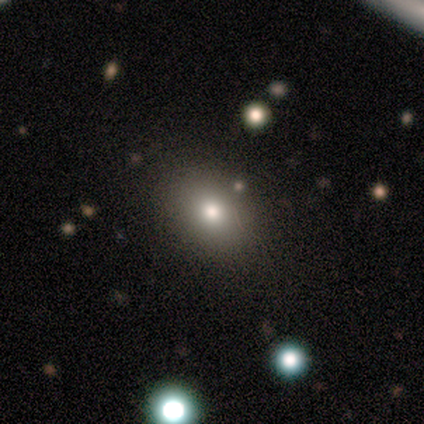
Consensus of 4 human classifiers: Q: Smooth or featured?
A: smooth (100%)
Q: How rounded?
A: in between (100%)
Q: Merging?
A: none (100%)